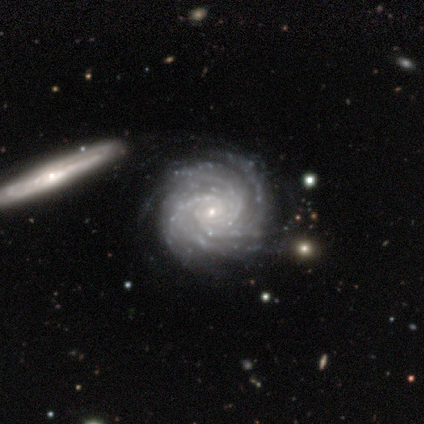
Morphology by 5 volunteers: This appears to be a featured or disk galaxy (80%) with no bar (75%), more than 4 (50%) tight (100%) spiral arms (100%) and a small central bulge (100%). Merging: none (75%).